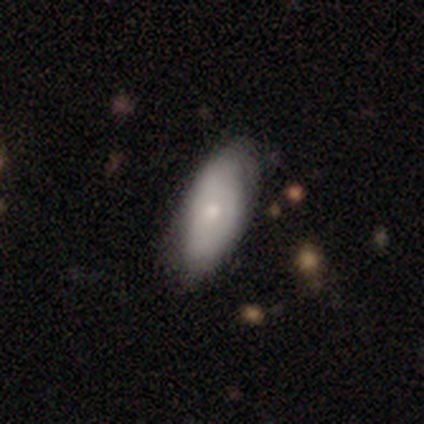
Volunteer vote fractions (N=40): Smooth or featured? 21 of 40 (52%) said smooth. How rounded? 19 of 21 (90%) said in between. Merging? 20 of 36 (56%) said none.